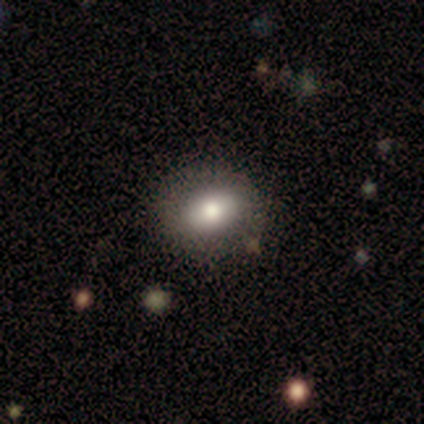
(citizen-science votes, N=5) Smooth or featured? smooth (60%)
How rounded? in between (67%)
Merging? none (100%)